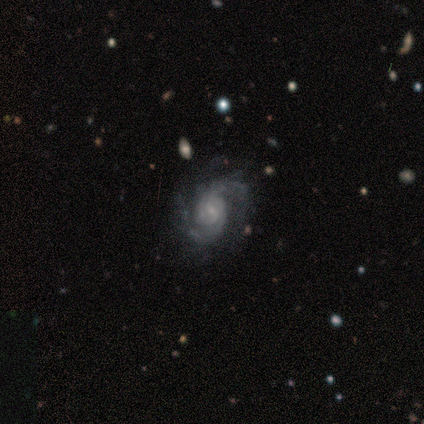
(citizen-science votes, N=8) Smooth or featured? featured or disk (88%)
Edge-on disk? no (100%)
Bar? no (71%)
Spiral arms? yes (100%)
Spiral winding? tight (71%)
Spiral arm count? 2 (71%)
Bulge size? small (57%)
Merging? none (86%)